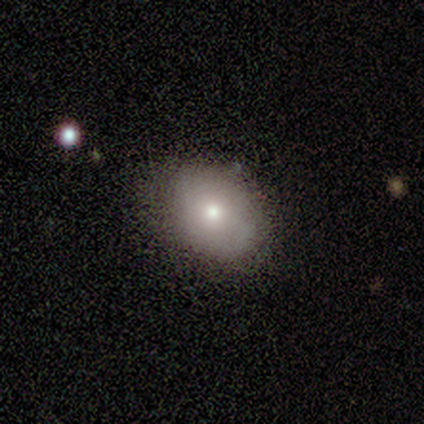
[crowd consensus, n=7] This is marginally a smooth galaxy (43%, tied with featured or disk). How rounded: likely in between (67%). Merging: clearly none (100%).